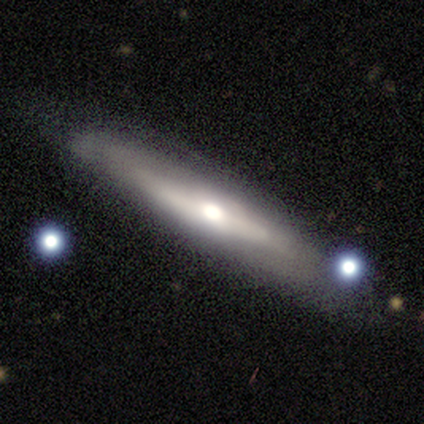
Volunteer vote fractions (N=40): smooth-or-featured: featured or disk: 65% | smooth: 28% | star or artifact: 8%
  disk-edge-on: yes: 81% | no: 19%
    edge-on-bulge: rounded: 81% | none: 19% | boxy: 0%
  merging: none: 78% | minor disturbance: 11% | major disturbance: 8% | merger: 3%